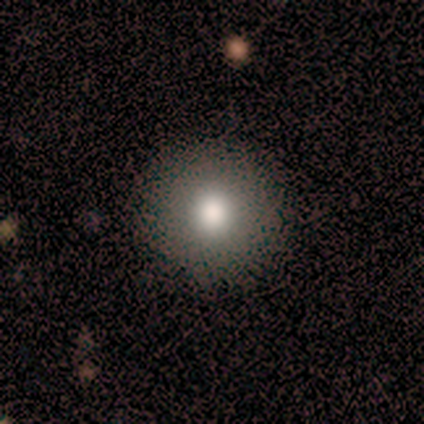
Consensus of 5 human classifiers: Q: Smooth or featured?
A: smooth (100%)
Q: How rounded?
A: round (100%)
Q: Merging?
A: none (100%)